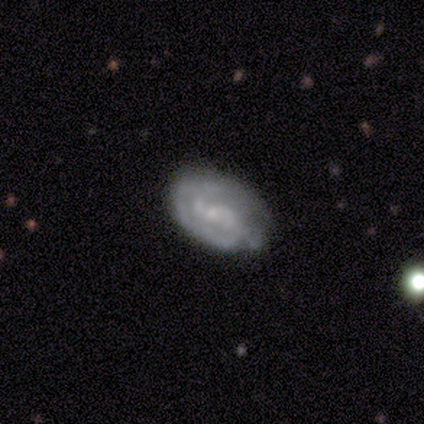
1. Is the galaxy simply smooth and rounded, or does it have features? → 50% featured or disk, 25% smooth, 25% star or artifact.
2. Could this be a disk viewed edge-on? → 100% no, 0% yes.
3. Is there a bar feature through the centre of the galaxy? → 100% no, 0% strong, 0% weak.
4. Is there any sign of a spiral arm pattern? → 50% yes (tied), 50% no (tied).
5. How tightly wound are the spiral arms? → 100% tight, 0% medium, 0% loose.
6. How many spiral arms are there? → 100% can't tell, 0% 1, 0% 2, 0% 3, 0% 4, 0% more than 4.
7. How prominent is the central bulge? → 50% small (tied), 50% none (tied), 0% dominant, 0% large, 0% moderate.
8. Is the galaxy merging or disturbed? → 33% none (tied), 33% minor disturbance (tied), 33% merger (tied), 0% major disturbance.